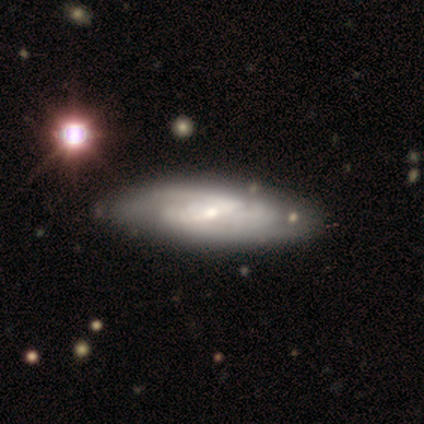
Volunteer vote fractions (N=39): Q: Smooth or featured?
A: featured or disk (69%); runner-up: smooth (31%)
Q: Edge-on disk?
A: no (85%); runner-up: yes (15%)
Q: Bar?
A: strong (43%); runner-up: weak (39%)
Q: Spiral arms?
A: yes (83%); runner-up: no (17%)
Q: Spiral winding?
A: tight (37%); tied with: medium (37%)
Q: Spiral arm count?
A: 2 (47%); runner-up: can't tell (42%)
Q: Bulge size?
A: small (48%); runner-up: moderate (30%)
Q: Merging?
A: none (54%); runner-up: minor disturbance (13%)